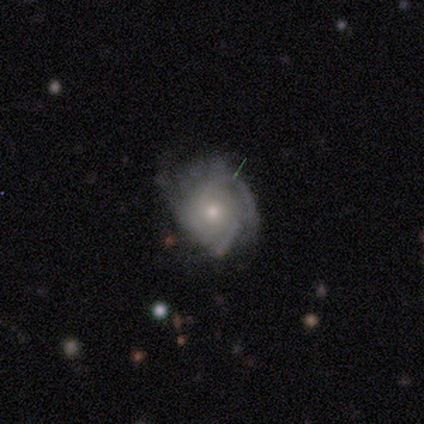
Volunteers were most divided on "spiral winding" (2-way tie): tight: 50%, loose: 50%, medium: 0%. More confident: edge-on disk — no (100%); bar — no (100%); spiral arm count — can't tell (100%); bulge size — moderate (100%); smooth or featured — featured or disk (75%); merging — none (75%); spiral arms — yes (67%).